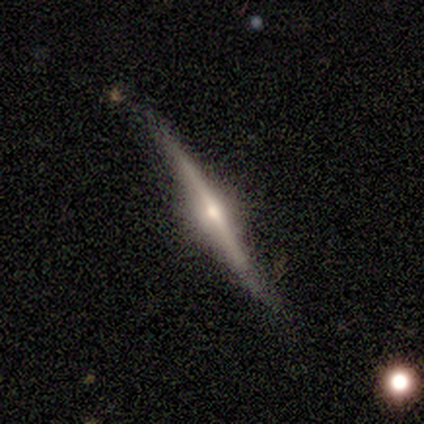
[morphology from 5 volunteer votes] Smooth or featured? featured or disk (100%)
Edge-on disk? yes (100%)
Edge-on bulge? rounded (60%)
Merging? none (60%)